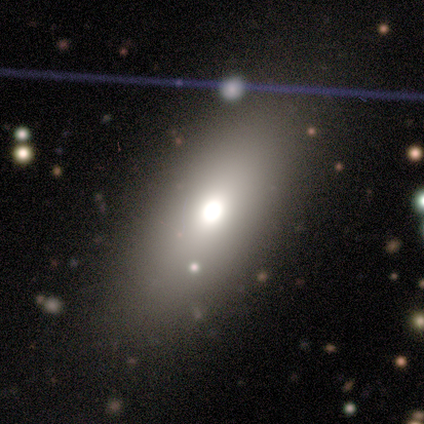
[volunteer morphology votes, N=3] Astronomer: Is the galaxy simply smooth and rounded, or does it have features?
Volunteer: smooth — 67%.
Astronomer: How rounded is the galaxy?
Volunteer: in between — 100%.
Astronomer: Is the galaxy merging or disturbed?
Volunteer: none — 67%.